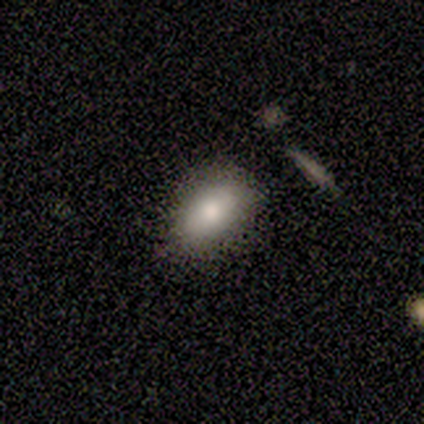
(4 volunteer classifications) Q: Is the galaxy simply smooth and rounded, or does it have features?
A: smooth — 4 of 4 (100%).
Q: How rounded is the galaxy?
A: in between — 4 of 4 (100%).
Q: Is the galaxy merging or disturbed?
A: none — 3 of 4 (75%).